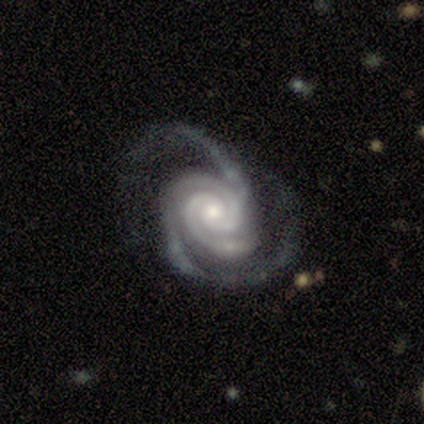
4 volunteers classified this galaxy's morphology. This is likely a featured or disk galaxy (75%). It is clearly not viewed edge-on (100%). Bar: likely no (67%). Spiral arm pattern: clearly yes (100%). Spiral arm count: likely 2 (67%). Spiral winding: likely tight (67%). Central bulge: likely moderate (67%). Merging: likely minor disturbance (67%).